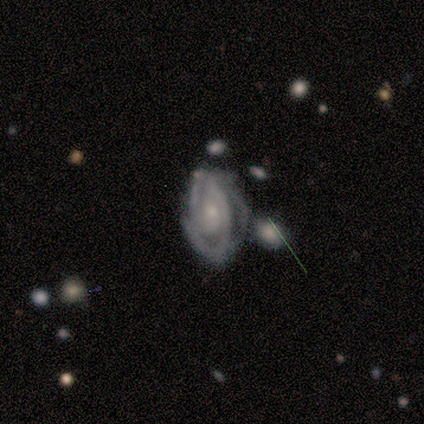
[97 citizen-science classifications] smooth-or-featured: featured or disk: 89% | smooth: 7% | star or artifact: 4%
  disk-edge-on: no: 98% | yes: 2%
    bar: no: 65% | weak: 30% | strong: 5%
    has-spiral-arms: yes: 98% | no: 2%
      spiral-winding: tight: 66% | medium: 32% | loose: 2%
      spiral-arm-count: 2: 55% | 3: 24% | can't tell: 15% | 1: 4% | 4: 2% | more than 4: 0%
    bulge-size: small: 57% | moderate: 35% | none: 6% | large: 2% | dominant: 0%
  merging: none: 39% | minor disturbance: 28% | major disturbance: 19% | merger: 14%